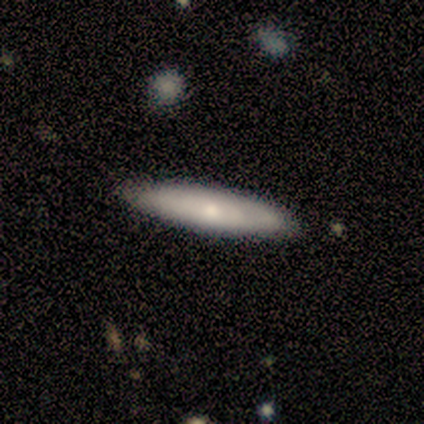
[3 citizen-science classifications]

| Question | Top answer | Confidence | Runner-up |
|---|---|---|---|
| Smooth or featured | featured or disk | 67% | smooth (33%) |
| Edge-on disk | yes | 50% | tied: no (50%) |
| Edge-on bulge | rounded | 100% | — |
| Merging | none | 100% | — |